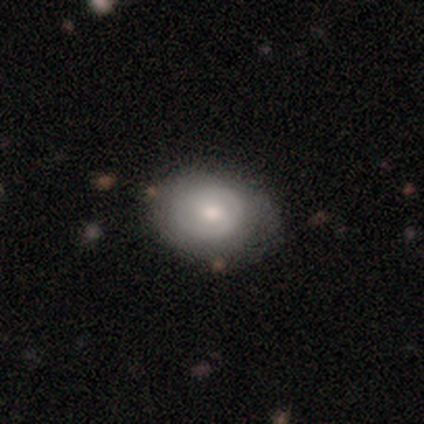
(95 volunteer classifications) Overall: smooth (54%; featured or disk 41%). How rounded: in between (57%; round 43%). Merging: none (66%; minor disturbance 27%).